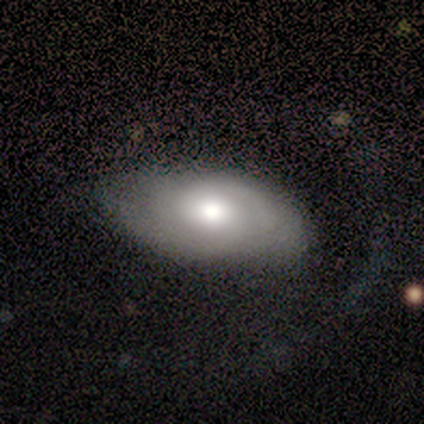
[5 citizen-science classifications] This is clearly a featured or disk galaxy (80%). It is clearly not viewed edge-on (100%). Bar: likely no (75%). Spiral arm pattern: possibly yes (50%, tied with no). Spiral arm count: possibly 2 (50%, tied with can't tell). Spiral winding: clearly medium (100%). Central bulge: likely moderate (75%). Merging: likely none (60%).